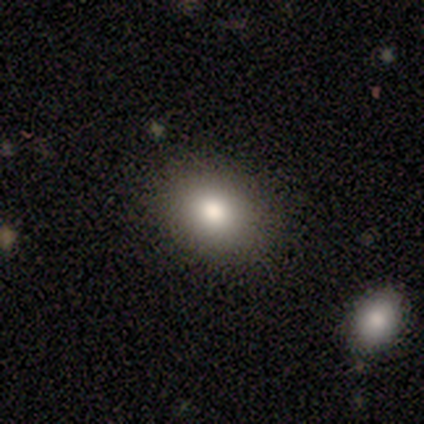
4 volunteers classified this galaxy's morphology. Smooth or featured? smooth (100%)
How rounded? in between (75%)
Merging? none (100%)